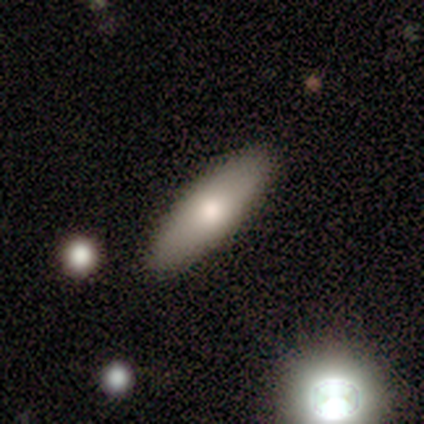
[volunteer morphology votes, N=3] Smooth or featured?
  - smooth: 67% *
  - featured or disk: 33%
  - star or artifact: 0%
How rounded?
  - in between: 100% *
  - round: 0%
  - cigar-shaped: 0%
Merging?
  - none: 100% *
  - minor disturbance: 0%
  - major disturbance: 0%
  - merger: 0%